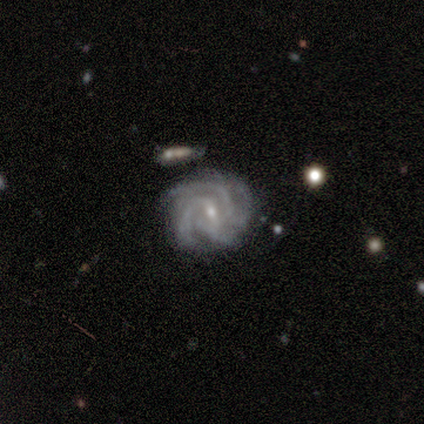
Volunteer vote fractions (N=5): Q: Smooth or featured?
A: featured or disk (80%); runner-up: smooth (20%)
Q: Edge-on disk?
A: no (100%)
Q: Bar?
A: weak (50%); runner-up: strong (25%)
Q: Spiral arms?
A: yes (100%)
Q: Spiral winding?
A: tight (100%)
Q: Spiral arm count?
A: 2 (25%); tied with: 3 (25%); 4 (25%); more than 4 (25%)
Q: Bulge size?
A: small (75%); runner-up: moderate (25%)
Q: Merging?
A: none (80%); runner-up: minor disturbance (20%)